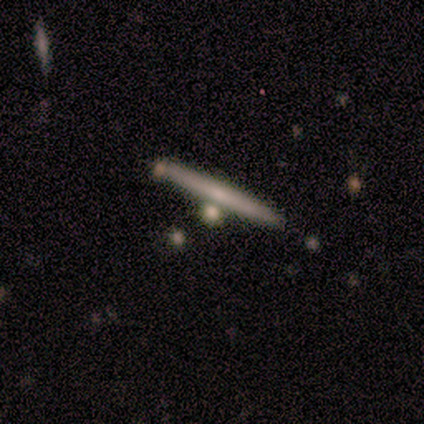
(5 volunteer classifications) smooth 60%, featured or disk 20%, star or artifact 20%. Down the decision tree: how rounded — cigar-shaped (67%); merging — none (75%).